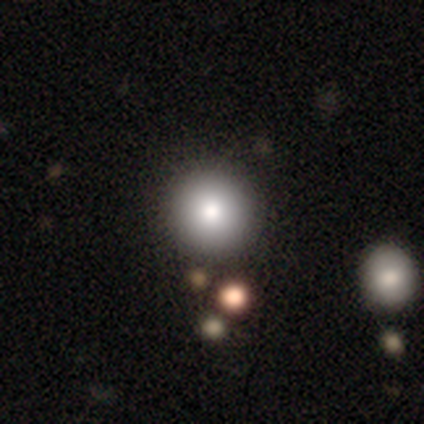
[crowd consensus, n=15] smooth_or_featured: smooth (p=0.93) [alt: featured or disk p=0.07]
how_rounded: round (p=0.93) [alt: in between p=0.07]
merging: none (p=0.80) [alt: minor disturbance p=0.20]